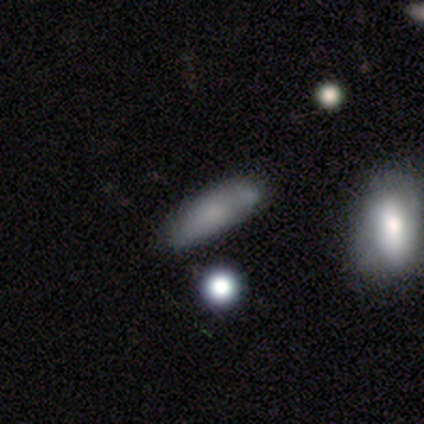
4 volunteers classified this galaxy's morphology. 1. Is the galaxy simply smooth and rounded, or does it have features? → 100% smooth, 0% featured or disk, 0% star or artifact.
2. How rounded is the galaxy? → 50% in between (tied), 50% cigar-shaped (tied), 0% round.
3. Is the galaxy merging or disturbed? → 75% none, 25% minor disturbance, 0% major disturbance, 0% merger.